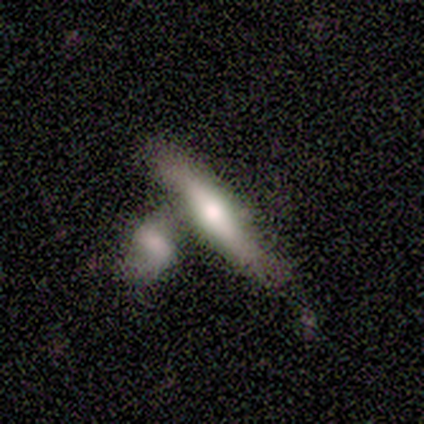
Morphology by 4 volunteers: A smooth galaxy with no disk features (50%, tied with featured or disk) that is cigar-shaped (100%).

Vote fractions:
- Smooth or featured? smooth: 50% (tied) / featured or disk: 50% (tied) / star or artifact: 0%
- How rounded? cigar-shaped: 100% / round: 0% / in between: 0%
- Merging? none: 100% / minor disturbance: 0% / major disturbance: 0% / merger: 0%